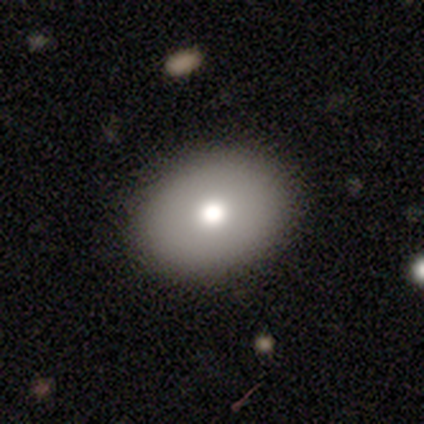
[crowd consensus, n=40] smooth 75%, featured or disk 12%, star or artifact 12%. Down the decision tree: how rounded — in between (63%); merging — none (94%).